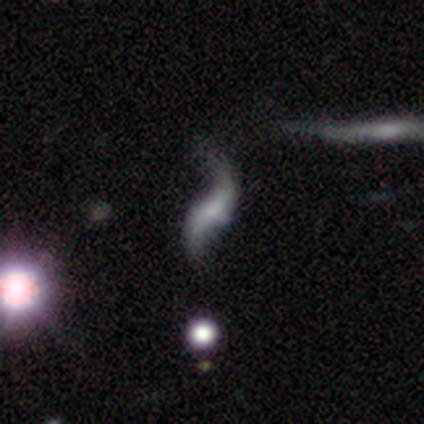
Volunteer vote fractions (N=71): Overall: featured or disk (94%). Edge-on disk: no (91%). Bar: no (54%; weak 36%). Spiral arms: yes (95%). Spiral arm count: 2 (97%). Spiral winding: loose (98%). Bulge size: none (43%; small 38%). Merging: none (56%; minor disturbance 24%).